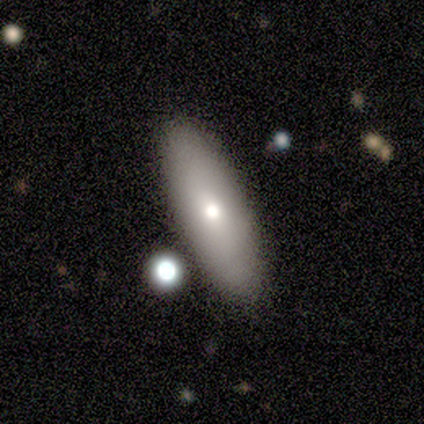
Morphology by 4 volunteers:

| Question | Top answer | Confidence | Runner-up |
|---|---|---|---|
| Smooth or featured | smooth | 75% | featured or disk (25%) |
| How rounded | in between | 100% | — |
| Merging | none | 50% | minor disturbance (25%) |